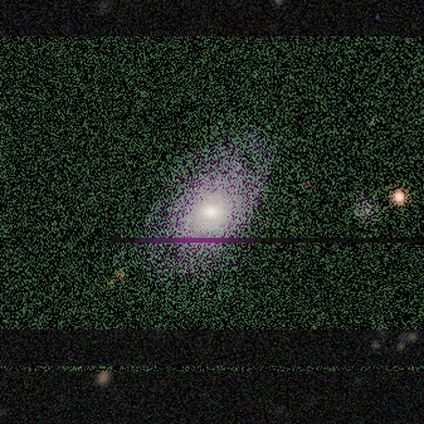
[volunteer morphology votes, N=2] Overall: featured or disk (100%). Edge-on disk: no (100%). Bar: no (100%). Spiral arms: yes (50%, tied with no). Spiral arm count: can't tell (100%). Spiral winding: tight (100%). Bulge size: small (100%). Merging: none (100%).